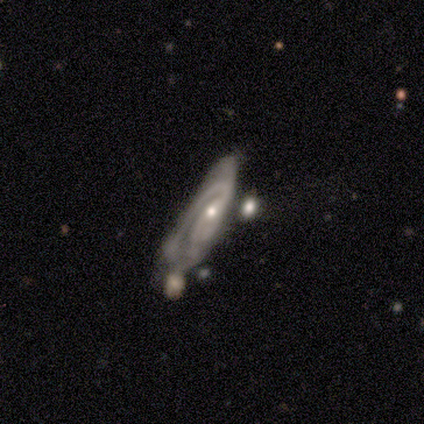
smooth-or-featured: featured or disk: 100% | smooth: 0% | star or artifact: 0%
  disk-edge-on: no: 75% | yes: 25%
    bar: no: 67% | weak: 33% | strong: 0%
    has-spiral-arms: yes: 100% | no: 0%
      spiral-winding: tight: 33% (tied) | medium: 33% (tied) | loose: 33% (tied)
      spiral-arm-count: 2: 100% | 1: 0% | 3: 0% | 4: 0% | more than 4: 0% | can't tell: 0%
    bulge-size: small: 67% | moderate: 33% | dominant: 0% | large: 0% | none: 0%
  merging: minor disturbance: 50% | none: 25% | merger: 25% | major disturbance: 0%